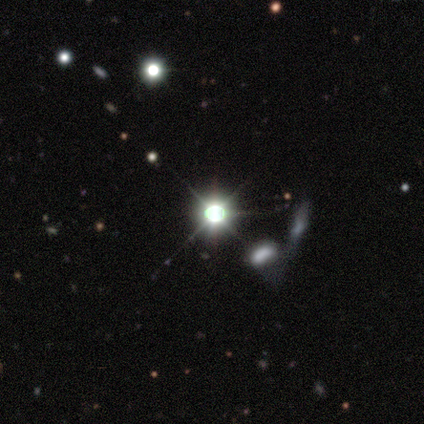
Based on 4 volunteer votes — Q: Smooth or featured?
A: star or artifact (100%)